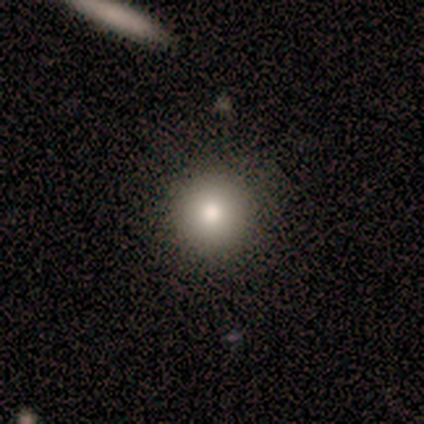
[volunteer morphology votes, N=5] Smooth or featured: smooth — 80% (featured or disk — 20%)
How rounded: round — 100%
Merging: none — 80% (minor disturbance — 20%)